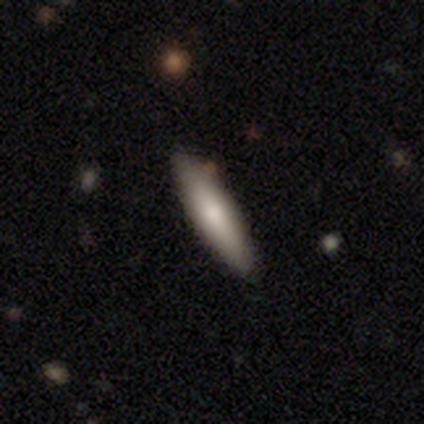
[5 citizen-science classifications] Q: Smooth or featured?
A: featured or disk (60%); runner-up: smooth (40%)
Q: Edge-on disk?
A: yes (67%); runner-up: no (33%)
Q: Edge-on bulge?
A: rounded (100%)
Q: Merging?
A: none (100%)